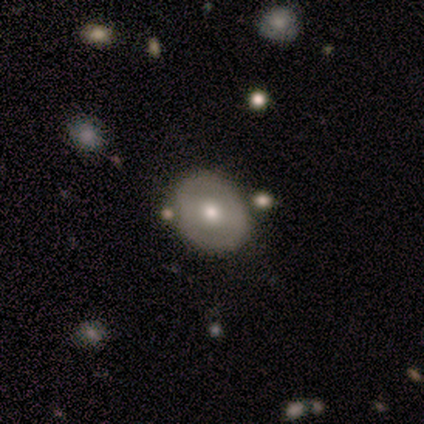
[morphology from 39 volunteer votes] This is possibly a smooth galaxy (49%). How rounded: likely round (79%). Merging: likely none (65%).